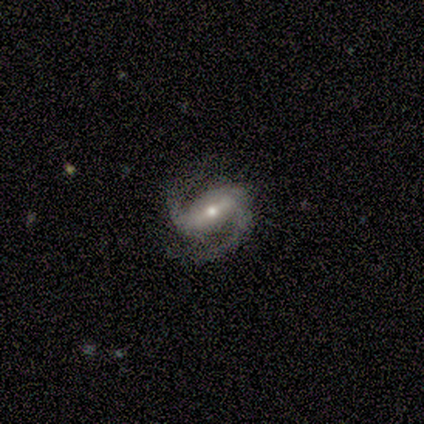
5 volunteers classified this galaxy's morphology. Volunteers were most divided on "bulge size" (2-way tie): moderate: 40%, small: 40%, large: 20%, dominant: 0%, none: 0%. More confident: smooth or featured — featured or disk (100%); edge-on disk — no (100%); spiral arms — yes (100%); spiral arm count — 2 (100%); merging — none (100%); bar — strong (80%); spiral winding — medium (80%).